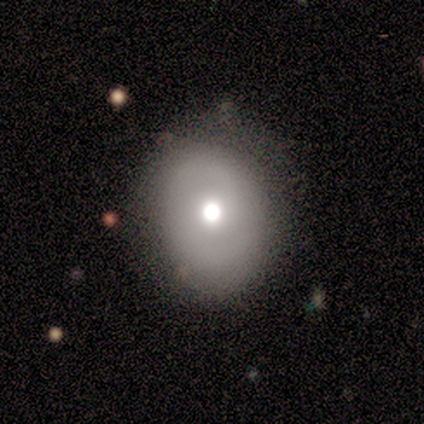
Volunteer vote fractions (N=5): A featured or disk galaxy (80%) with no bar (100%), 2 (100%) tight (50%, tied with medium) spiral arms (50%, tied with no) and a large central bulge (50%).

Vote fractions:
- Smooth or featured? featured or disk: 80% / smooth: 20% / star or artifact: 0%
- Edge-on disk? no: 100% / yes: 0%
- Bar? no: 100% / strong: 0% / weak: 0%
- Spiral arms? yes: 50% (tied) / no: 50% (tied)
- Spiral winding? tight: 50% (tied) / medium: 50% (tied) / loose: 0%
- Spiral arm count? 2: 100% / 1: 0% / 3: 0% / 4: 0% / more than 4: 0% / can't tell: 0%
- Bulge size? large: 50% / dominant: 25% / moderate: 25% / small: 0% / none: 0%
- Merging? none: 100% / minor disturbance: 0% / major disturbance: 0% / merger: 0%